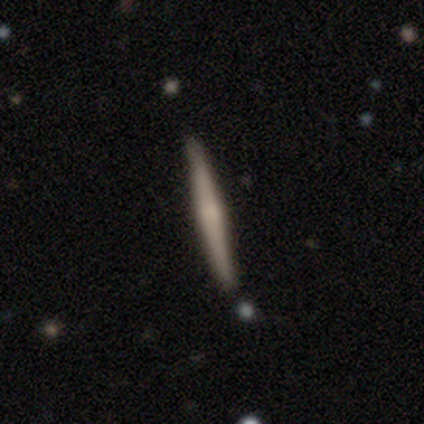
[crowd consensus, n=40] Smooth or featured: featured or disk — 60% (smooth — 35%)
Edge-on disk: yes — 96% (no — 4%)
Edge-on bulge: rounded — 65% (boxy — 22%)
Merging: none — 89% (minor disturbance — 5%)